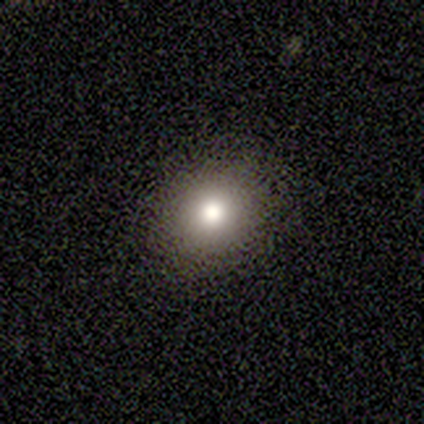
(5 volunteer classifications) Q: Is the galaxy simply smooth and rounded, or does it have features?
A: smooth — 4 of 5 (80%).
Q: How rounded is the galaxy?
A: in between — 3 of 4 (75%).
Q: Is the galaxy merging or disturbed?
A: none — 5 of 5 (100%).